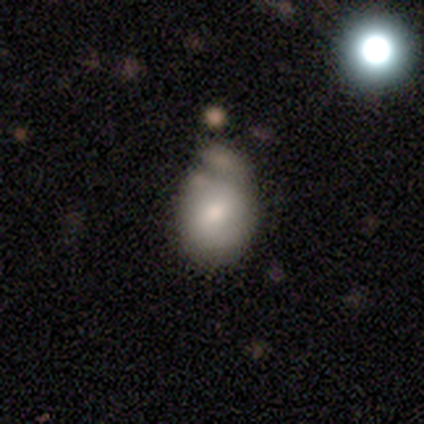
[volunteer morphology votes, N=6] This appears to be a featured or disk galaxy (67%) with a weak bar (75%), 2 (100%) tight (50%, tied with loose) spiral arms (50%, tied with no) and a moderate central bulge (75%). Merging: minor disturbance (50%).